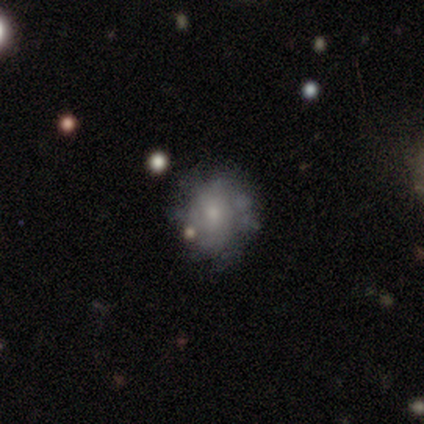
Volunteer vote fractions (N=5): Smooth or featured?
  - featured or disk: 60% *
  - smooth: 40%
  - star or artifact: 0%
Edge-on disk?
  - no: 100% *
  - yes: 0%
Bar?
  - weak: 67% *
  - no: 33%
  - strong: 0%
Spiral arms?
  - no: 67% *
  - yes: 33%
Bulge size?
  - small: 67% *
  - moderate: 33%
  - dominant: 0%
  - large: 0%
  - none: 0%
Merging?
  - none: 60% *
  - minor disturbance: 20%
  - major disturbance: 20%
  - merger: 0%